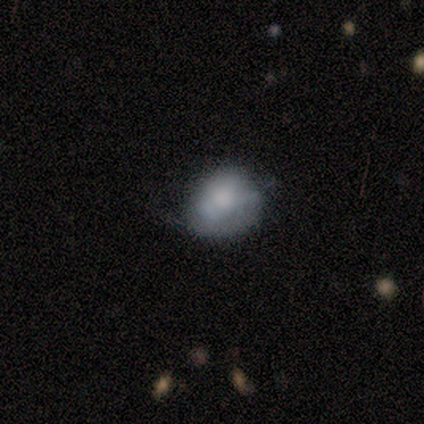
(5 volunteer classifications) This appears to be a smooth galaxy with no disk features (80%) that is in between round and cigar-shaped (75%). Merging: none (60%).